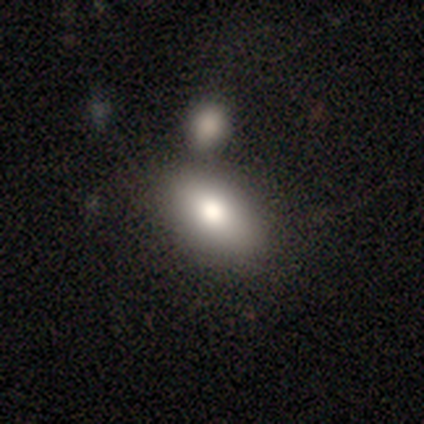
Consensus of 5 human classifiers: Q: Smooth or featured?
A: smooth (60%); runner-up: featured or disk (20%)
Q: How rounded?
A: in between (67%); runner-up: cigar-shaped (33%)
Q: Merging?
A: none (75%); runner-up: major disturbance (25%)